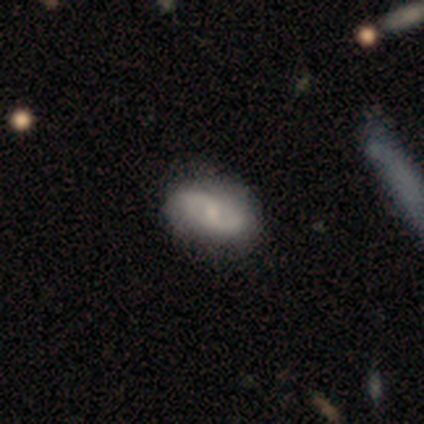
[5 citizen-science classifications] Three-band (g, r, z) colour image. It shows a smooth galaxy with no disk features (60%) that is in between round and cigar-shaped (67%). Merging: none (80%).